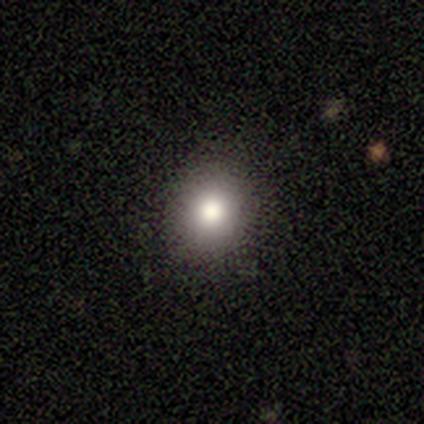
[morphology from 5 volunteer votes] Overall: smooth (80%). How rounded: round (75%). Merging: none (100%).